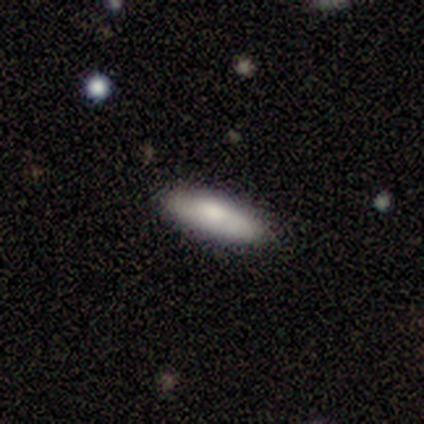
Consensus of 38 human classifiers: Smooth or featured? 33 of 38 (87%) said smooth. How rounded? 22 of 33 (67%) said in between. Merging? 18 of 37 (49%) said none.